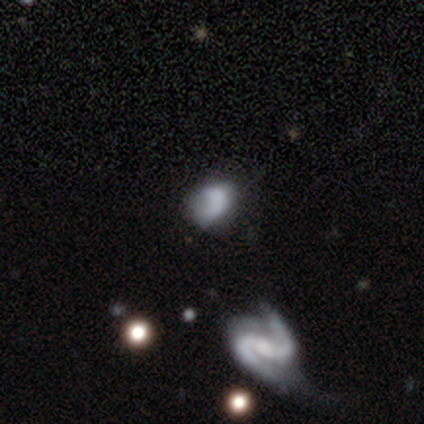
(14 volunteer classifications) smooth-or-featured: smooth: 50% | featured or disk: 43% | star or artifact: 7%
  how-rounded: in between: 57% | round: 43% | cigar-shaped: 0%
  merging: none: 38% (tied) | minor disturbance: 38% (tied) | merger: 15% | major disturbance: 8%